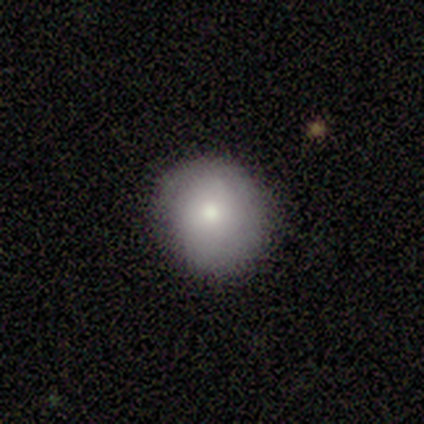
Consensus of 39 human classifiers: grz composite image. It shows a smooth galaxy with no disk features (85%) that is round (88%). Merging: none (76%).